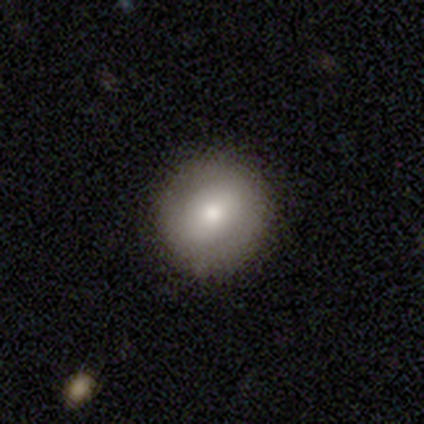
Smooth or featured? 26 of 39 (67%) said smooth. How rounded? 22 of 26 (85%) said round. Merging? 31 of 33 (94%) said none.